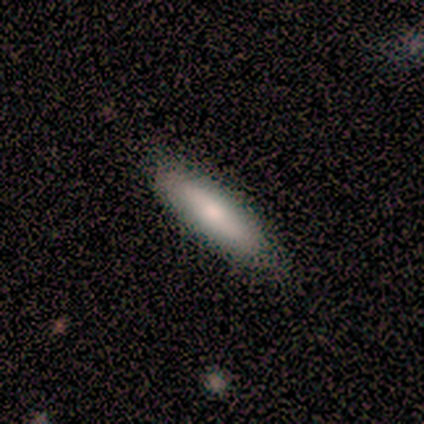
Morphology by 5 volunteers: A smooth galaxy with no disk features (40%, tied with featured or disk) that is in between round and cigar-shaped (50%, tied with cigar-shaped).

Vote fractions:
- Smooth or featured? smooth: 40% (tied) / featured or disk: 40% (tied) / star or artifact: 20%
- How rounded? in between: 50% (tied) / cigar-shaped: 50% (tied) / round: 0%
- Merging? none: 100% / minor disturbance: 0% / major disturbance: 0% / merger: 0%